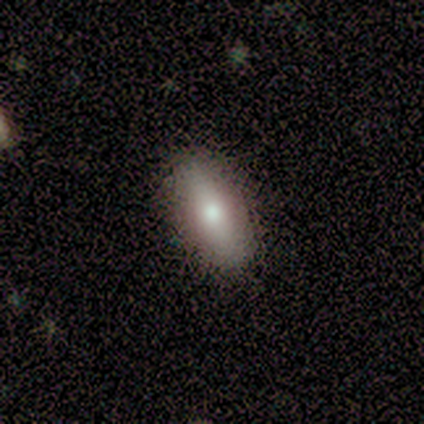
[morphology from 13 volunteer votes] type=smooth (85%); roundness=in between (73%); merging=none (85%).